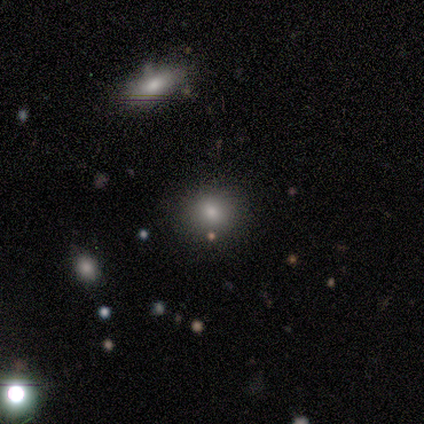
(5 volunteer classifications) Smooth or featured? 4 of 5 (80%) said smooth. How rounded? 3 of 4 (75%) said round. Merging? 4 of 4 (100%) said none.